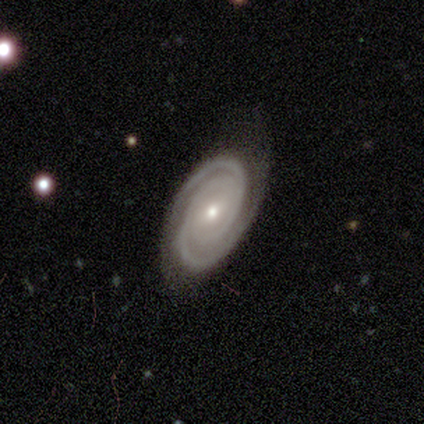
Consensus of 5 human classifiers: Q: Smooth or featured?
A: featured or disk (100%)
Q: Edge-on disk?
A: no (100%)
Q: Bar?
A: no (80%); runner-up: weak (20%)
Q: Spiral arms?
A: yes (100%)
Q: Spiral winding?
A: tight (100%)
Q: Spiral arm count?
A: 2 (60%); runner-up: 3 (20%)
Q: Bulge size?
A: small (80%); runner-up: moderate (20%)
Q: Merging?
A: none (60%); runner-up: minor disturbance (20%)